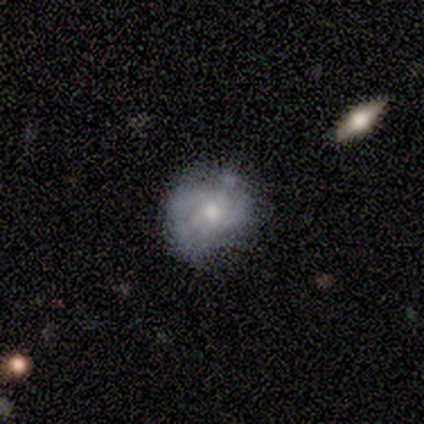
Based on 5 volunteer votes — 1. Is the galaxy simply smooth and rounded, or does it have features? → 60% featured or disk, 40% smooth, 0% star or artifact.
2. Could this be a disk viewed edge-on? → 100% no, 0% yes.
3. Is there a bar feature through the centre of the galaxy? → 100% no, 0% strong, 0% weak.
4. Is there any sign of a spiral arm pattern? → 67% no, 33% yes.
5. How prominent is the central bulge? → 67% small, 33% moderate, 0% dominant, 0% large, 0% none.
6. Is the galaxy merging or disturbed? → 60% none, 40% minor disturbance, 0% major disturbance, 0% merger.